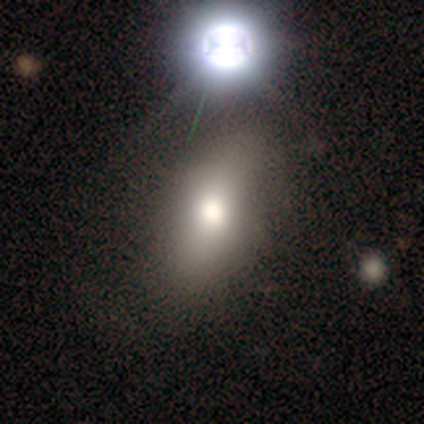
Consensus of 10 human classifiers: A smooth galaxy with no disk features (70%) that is in between round and cigar-shaped (57%).

Vote fractions:
- Smooth or featured? smooth: 70% / featured or disk: 30% / star or artifact: 0%
- How rounded? in between: 57% / round: 29% / cigar-shaped: 14%
- Merging? none: 90% / major disturbance: 10% / minor disturbance: 0% / merger: 0%